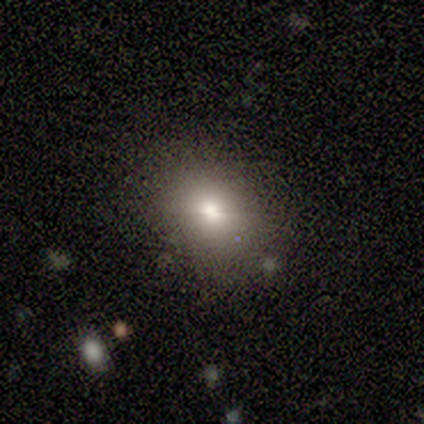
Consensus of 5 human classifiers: Volunteers were most divided on "how rounded": round: 67%, in between: 33%, cigar-shaped: 0%. More confident: merging — none (100%); smooth or featured — smooth (60%).